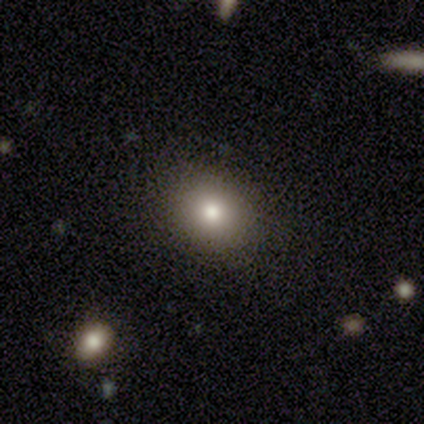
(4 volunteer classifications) smooth_or_featured: smooth (p=0.75) [alt: featured or disk p=0.25]
how_rounded: in between (p=0.67) [alt: round p=0.33]
merging: none (p=1.00)